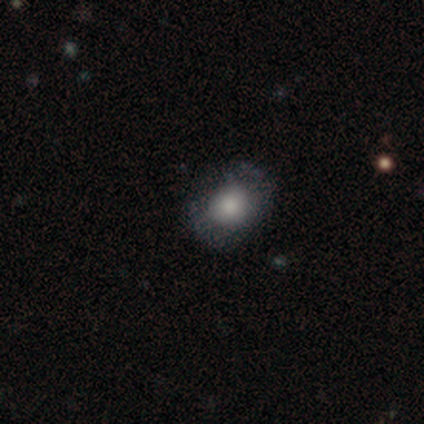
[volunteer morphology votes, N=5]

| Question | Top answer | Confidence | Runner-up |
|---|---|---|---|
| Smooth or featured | smooth | 80% | featured or disk (20%) |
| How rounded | in between | 75% | round (25%) |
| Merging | none | 60% | minor disturbance (20%) |